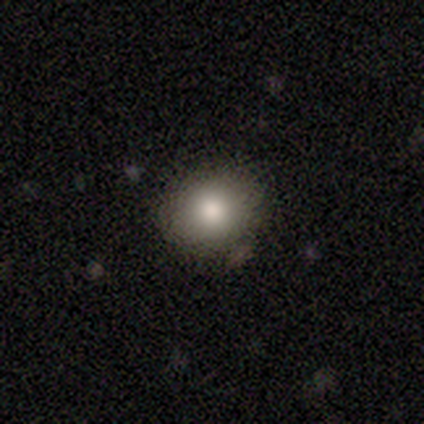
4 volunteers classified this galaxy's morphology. type=smooth (100%); roundness=round (50%, tied with in between); merging=none (75%).